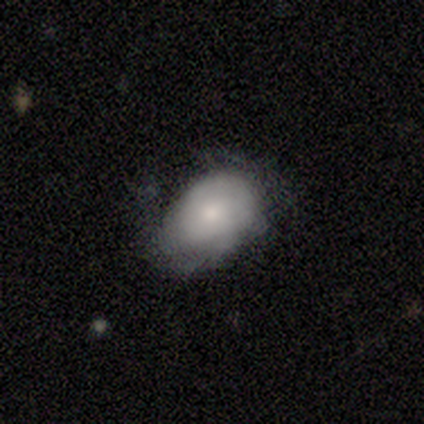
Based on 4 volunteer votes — This appears to be a smooth galaxy with no disk features (75%) that is in between round and cigar-shaped (100%). Merging: none (50%, tied with major disturbance).